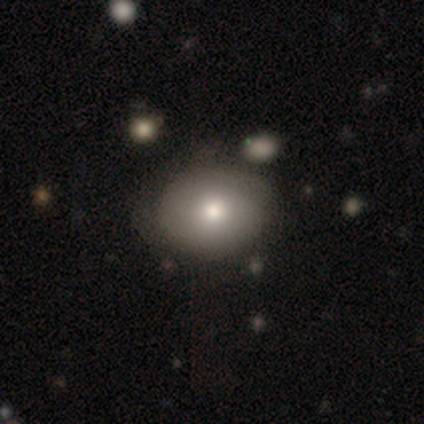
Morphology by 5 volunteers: Smooth or featured?
  - smooth: 60% *
  - featured or disk: 40%
  - star or artifact: 0%
How rounded?
  - round: 67% *
  - in between: 33%
  - cigar-shaped: 0%
Merging?
  - none: 40% * (tied)
  - minor disturbance: 40% * (tied)
  - merger: 20%
  - major disturbance: 0%